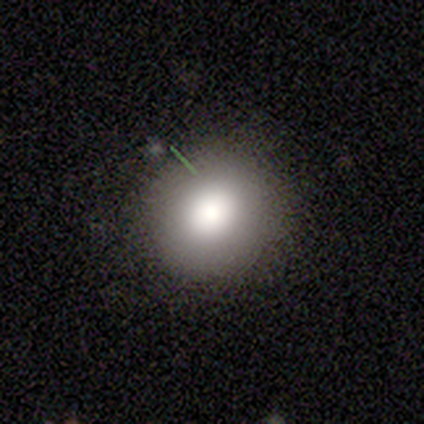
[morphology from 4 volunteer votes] Smooth or featured?
  - smooth: 50% *
  - featured or disk: 25%
  - star or artifact: 25%
How rounded?
  - round: 50% * (tied)
  - in between: 50% * (tied)
  - cigar-shaped: 0%
Merging?
  - none: 100% *
  - minor disturbance: 0%
  - major disturbance: 0%
  - merger: 0%